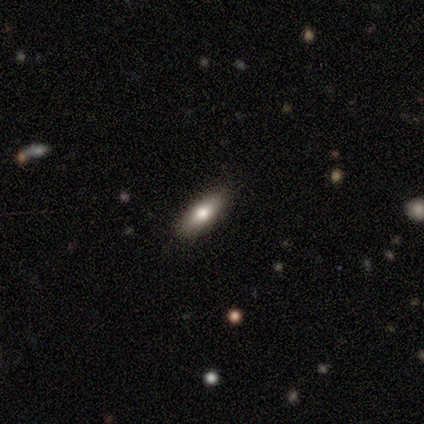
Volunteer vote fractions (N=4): Volunteers were most divided on "how rounded": in between: 67%, cigar-shaped: 33%, round: 0%. More confident: merging — none (100%); smooth or featured — smooth (75%).